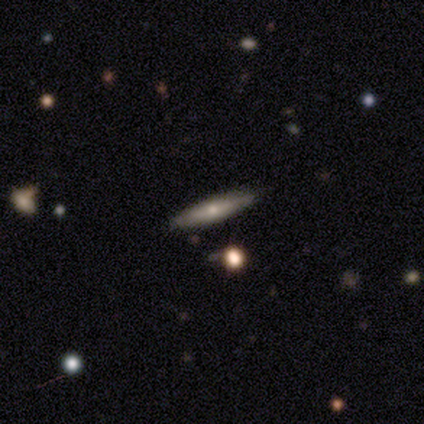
smooth_or_featured: smooth (p=0.60) [alt: featured or disk p=0.40]
how_rounded: cigar-shaped (p=0.67) [alt: in between p=0.33]
merging: none (p=0.80) [alt: minor disturbance p=0.20]